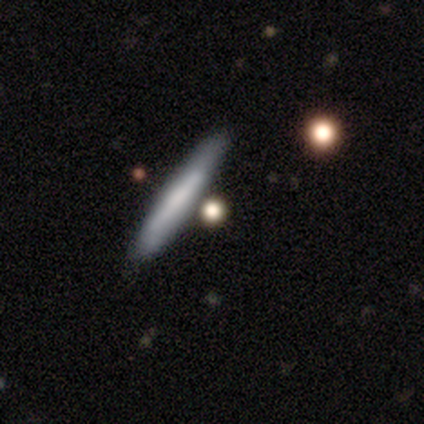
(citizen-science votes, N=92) This is possibly a smooth galaxy (58%). How rounded: clearly cigar-shaped (92%). Merging: clearly none (82%).